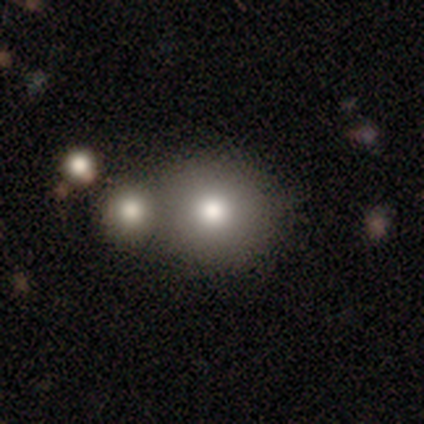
Smooth or featured: smooth — 100%
How rounded: round — 80% (in between — 20%)
Merging: merger — 60% (none — 40%)